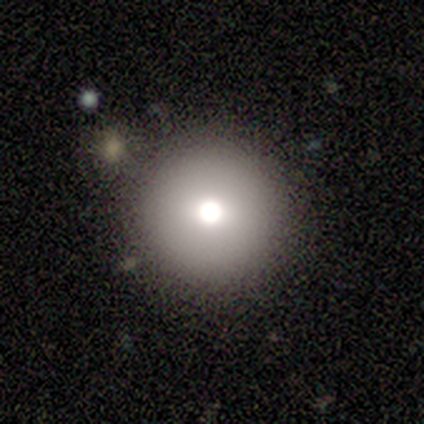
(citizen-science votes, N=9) smooth_or_featured: smooth (p=0.89) [alt: featured or disk p=0.11]
how_rounded: round (p=1.00)
merging: none (p=0.78) [alt: minor disturbance p=0.11]